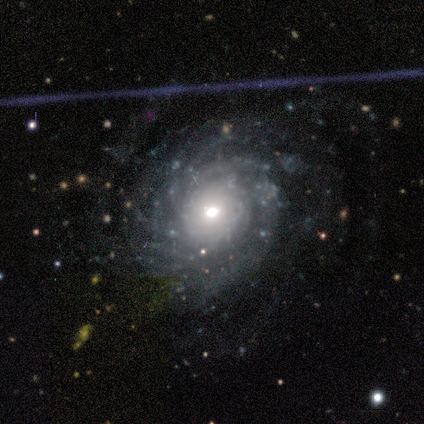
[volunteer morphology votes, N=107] Smooth or featured? 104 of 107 (97%) said featured or disk. Edge-on disk? 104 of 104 (100%) said no. Bar? 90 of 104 (87%) said no. Spiral arms? 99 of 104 (95%) said yes. Spiral winding? 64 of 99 (65%) said tight. Spiral arm count? 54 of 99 (55%) said more than 4. Bulge size? 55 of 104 (53%) said moderate. Merging? 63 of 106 (59%) said none.